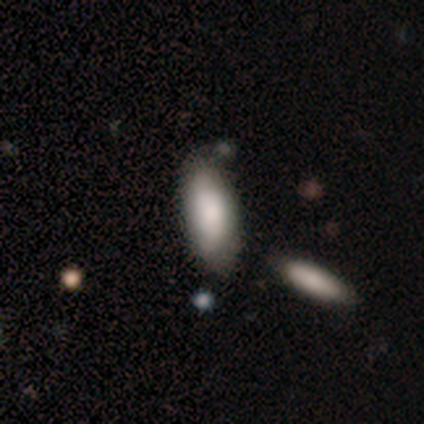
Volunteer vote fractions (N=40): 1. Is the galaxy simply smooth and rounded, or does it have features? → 85% smooth, 15% featured or disk, 0% star or artifact.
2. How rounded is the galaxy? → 82% in between, 18% cigar-shaped, 0% round.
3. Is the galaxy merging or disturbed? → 55% none, 18% minor disturbance, 5% major disturbance, 2% merger.